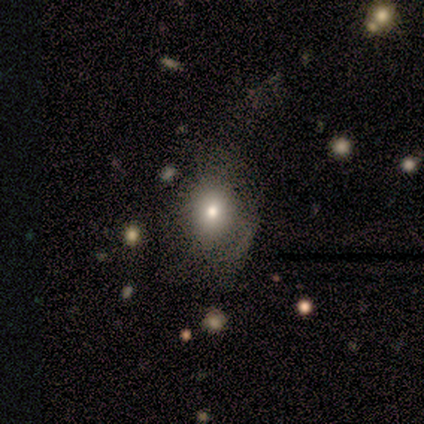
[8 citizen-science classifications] A smooth galaxy with no disk features (50%, tied with featured or disk) that is round (75%).

Vote fractions:
- Smooth or featured? smooth: 50% (tied) / featured or disk: 50% (tied) / star or artifact: 0%
- How rounded? round: 75% / in between: 25% / cigar-shaped: 0%
- Merging? none: 50% (tied) / major disturbance: 50% (tied) / minor disturbance: 0% / merger: 0%